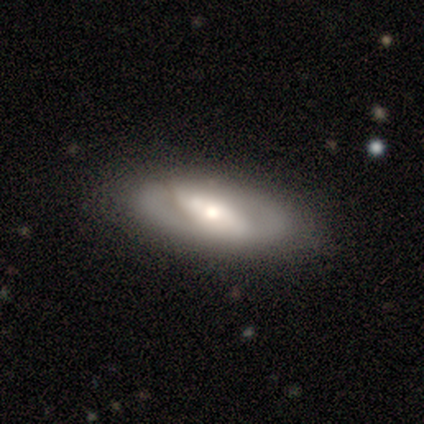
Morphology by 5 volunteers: Smooth or featured? 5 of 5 (100%) said featured or disk. Edge-on disk? 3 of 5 (60%) said no. Bar? 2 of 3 (67%) said no. Spiral arms? 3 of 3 (100%) said no. Bulge size? 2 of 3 (67%) said moderate. Merging? 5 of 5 (100%) said none.